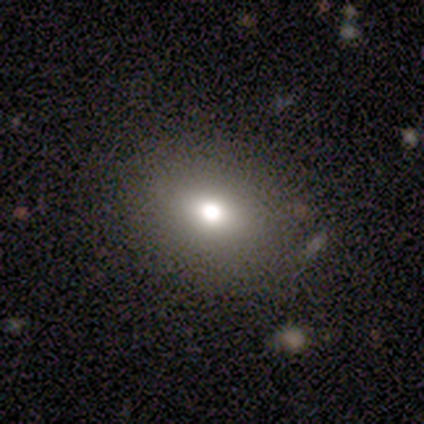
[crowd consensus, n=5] Morphology: type=smooth (100%); roundness=in between (60%); merging=none (100%).